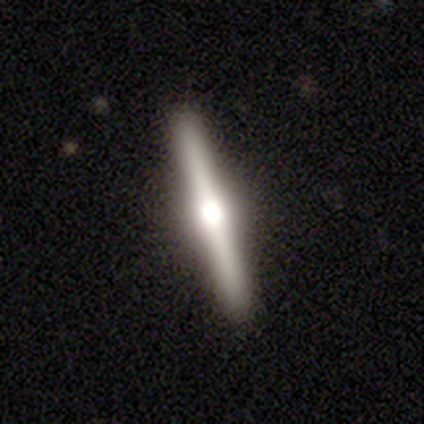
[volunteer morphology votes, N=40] Smooth or featured? 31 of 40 (78%) said featured or disk. Edge-on disk? 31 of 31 (100%) said yes. Edge-on bulge? 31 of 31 (100%) said rounded. Merging? 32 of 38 (84%) said none.